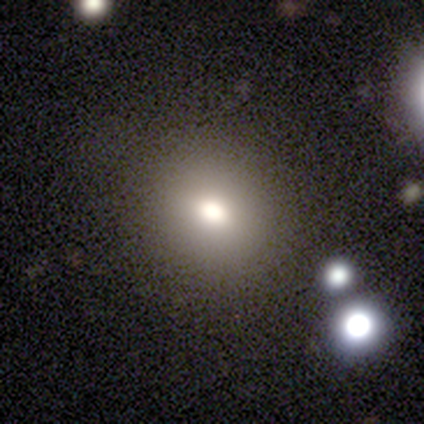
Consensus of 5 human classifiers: Smooth or featured? 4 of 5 (80%) said smooth. How rounded? 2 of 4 (50%, tied with in between) said round. Merging? 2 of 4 (50%) said none.